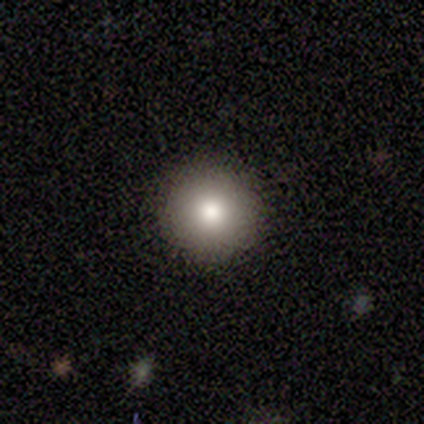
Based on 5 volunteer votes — This is clearly a smooth galaxy (100%). How rounded: clearly round (100%). Merging: clearly none (100%).